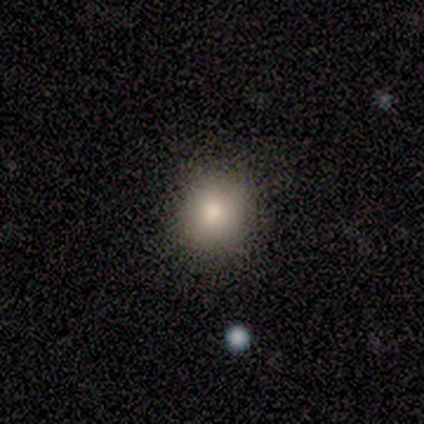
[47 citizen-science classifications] smooth-or-featured: smooth: 70% | featured or disk: 19% | star or artifact: 11%
  how-rounded: round: 91% | in between: 9% | cigar-shaped: 0%
  merging: none: 88% | minor disturbance: 7% | major disturbance: 5% | merger: 0%